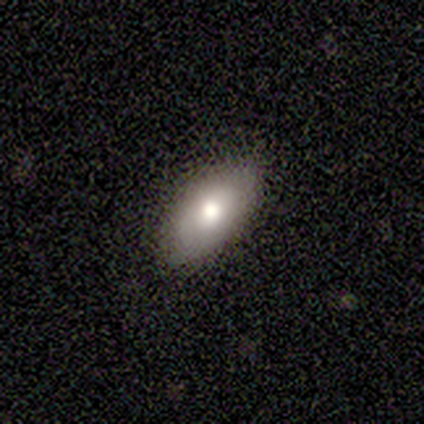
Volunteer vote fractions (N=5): A smooth galaxy with no disk features (100%) that is in between round and cigar-shaped (100%). Merging: none (80%).